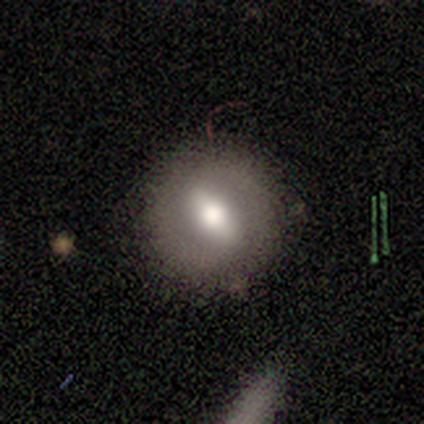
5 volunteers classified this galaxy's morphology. featured or disk 80%, smooth 20%, star or artifact 0%. Down the decision tree: edge-on disk — no (75%); bar — strong (67%); spiral arms — yes (67%); spiral arm count — 2 (50%, tied with can't tell); spiral winding — tight (50%, tied with medium); bulge size — large (67%); merging — none (80%).